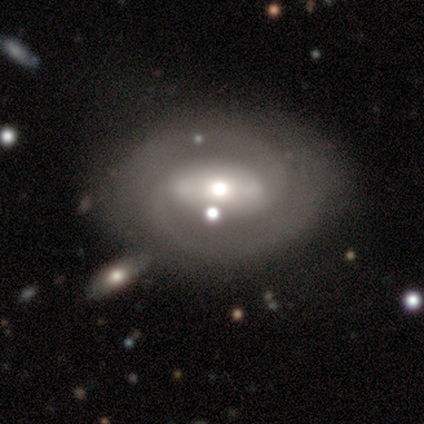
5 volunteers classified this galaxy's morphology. Volunteers were most divided on "bar": weak: 60%, strong: 40%, no: 0%. More confident: smooth or featured — featured or disk (100%); edge-on disk — no (100%); spiral arms — yes (100%); spiral arm count — 2 (80%); spiral winding — medium (60%); bulge size — moderate (60%); merging — none (60%).